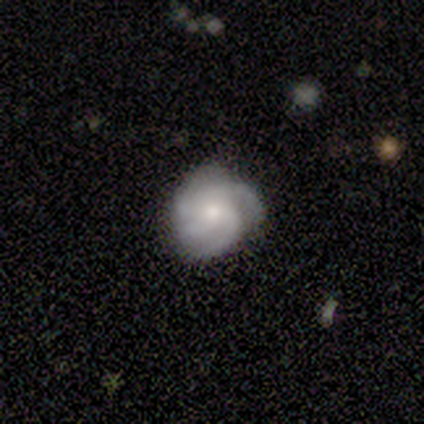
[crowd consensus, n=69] Smooth or featured?
  - featured or disk: 71% *
  - smooth: 25%
  - star or artifact: 4%
Edge-on disk?
  - no: 100% *
  - yes: 0%
Bar?
  - no: 92% *
  - weak: 6%
  - strong: 2%
Spiral arms?
  - yes: 96% *
  - no: 4%
Spiral winding?
  - tight: 60% *
  - medium: 36%
  - loose: 4%
Spiral arm count?
  - 4: 49% *
  - 3: 32%
  - can't tell: 11%
  - more than 4: 4%
  - 1: 2%
  - 2: 2%
Bulge size?
  - moderate: 49% *
  - small: 29%
  - large: 18%
  - dominant: 2%
  - none: 2%
Merging?
  - none: 73% *
  - minor disturbance: 20%
  - major disturbance: 6%
  - merger: 2%